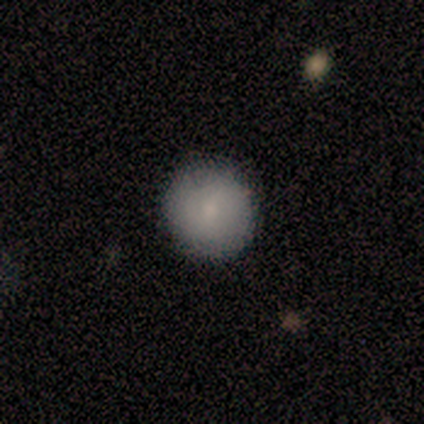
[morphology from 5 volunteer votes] Smooth or featured?
  - smooth: 100% *
  - featured or disk: 0%
  - star or artifact: 0%
How rounded?
  - round: 100% *
  - in between: 0%
  - cigar-shaped: 0%
Merging?
  - none: 100% *
  - minor disturbance: 0%
  - major disturbance: 0%
  - merger: 0%